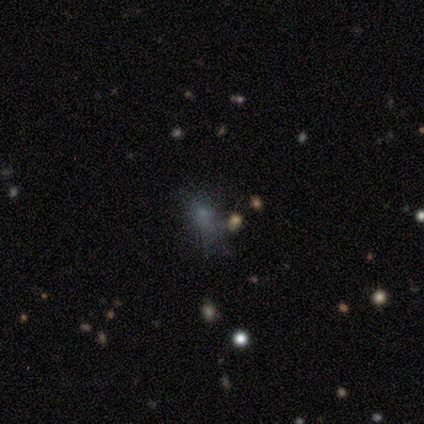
Smooth or featured?
  - smooth: 60% *
  - star or artifact: 40%
  - featured or disk: 0%
How rounded?
  - in between: 100% *
  - round: 0%
  - cigar-shaped: 0%
Merging?
  - major disturbance: 67% *
  - minor disturbance: 33%
  - none: 0%
  - merger: 0%